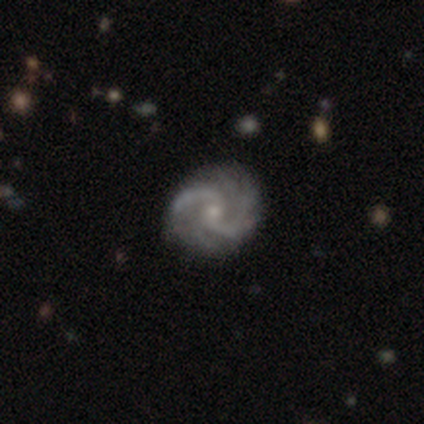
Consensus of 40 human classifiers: This appears to be a featured or disk galaxy (98%) with no bar (54%), 2 (58%) medium (42%) spiral arms (97%) and a small central bulge (72%). Merging: none (72%).